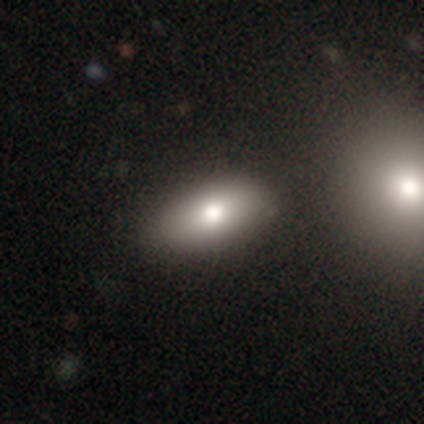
This is clearly a smooth galaxy (83%). How rounded: clearly in between (94%). Merging: marginally none (42%).